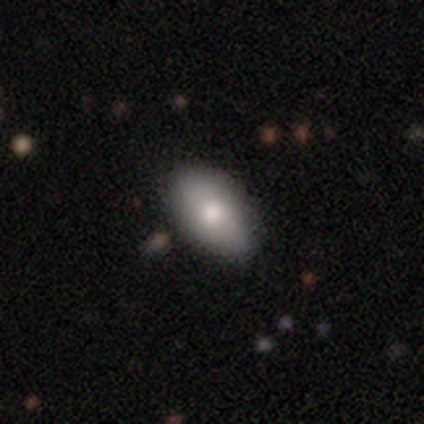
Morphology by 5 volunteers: This is clearly a smooth galaxy (80%). How rounded: clearly in between (100%). Merging: clearly none (100%).